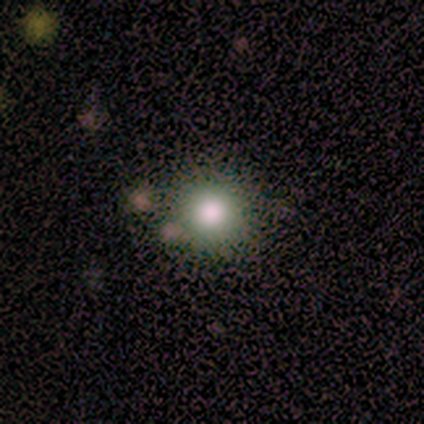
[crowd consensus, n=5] Smooth or featured?
  - smooth: 80% *
  - featured or disk: 20%
  - star or artifact: 0%
How rounded?
  - round: 100% *
  - in between: 0%
  - cigar-shaped: 0%
Merging?
  - minor disturbance: 60% *
  - none: 40%
  - major disturbance: 0%
  - merger: 0%